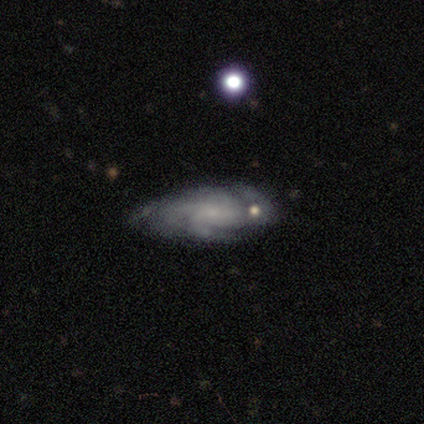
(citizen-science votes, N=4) A featured or disk galaxy (100%) with no bar (75%), 2 (33%, tied with 4 and can't tell) tight (67%) spiral arms (75%) and a small central bulge (50%, tied with none).

Vote fractions:
- Smooth or featured? featured or disk: 100% / smooth: 0% / star or artifact: 0%
- Edge-on disk? no: 100% / yes: 0%
- Bar? no: 75% / weak: 25% / strong: 0%
- Spiral arms? yes: 75% / no: 25%
- Spiral winding? tight: 67% / loose: 33% / medium: 0%
- Spiral arm count? 2: 33% (tied) / 4: 33% (tied) / can't tell: 33% (tied) / 1: 0% / 3: 0% / more than 4: 0%
- Bulge size? small: 50% (tied) / none: 50% (tied) / dominant: 0% / large: 0% / moderate: 0%
- Merging? none: 75% / minor disturbance: 25% / major disturbance: 0% / merger: 0%